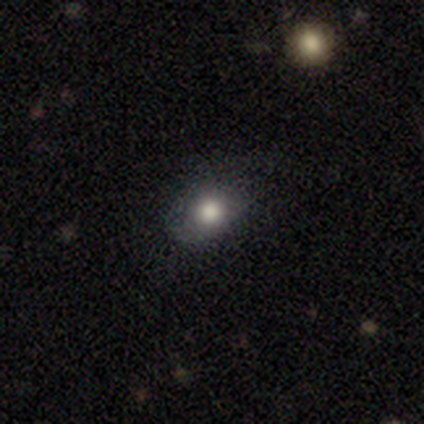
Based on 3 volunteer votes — Volunteers were most divided on "how rounded": round: 67%, in between: 33%, cigar-shaped: 0%. More confident: smooth or featured — smooth (100%); merging — none (100%).